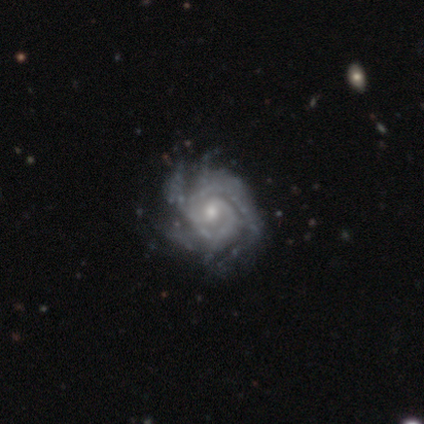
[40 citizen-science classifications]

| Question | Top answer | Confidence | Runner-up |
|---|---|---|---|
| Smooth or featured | featured or disk | 95% | smooth (2%) |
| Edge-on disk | no | 100% | — |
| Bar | no | 66% | weak (34%) |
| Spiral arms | yes | 100% | — |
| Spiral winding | tight | 63% | medium (32%) |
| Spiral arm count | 4 | 24% | 2 (21%) |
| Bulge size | moderate | 53% | small (39%) |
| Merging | none | 49% | minor disturbance (18%) |